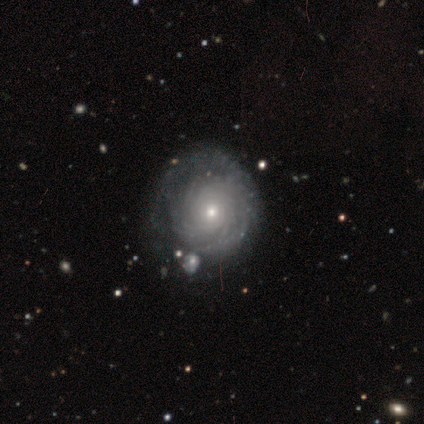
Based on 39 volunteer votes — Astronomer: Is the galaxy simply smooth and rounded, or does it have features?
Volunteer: featured or disk — 95%.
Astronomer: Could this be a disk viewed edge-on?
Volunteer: no — 97%.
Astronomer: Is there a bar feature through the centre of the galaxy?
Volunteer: no — 97%.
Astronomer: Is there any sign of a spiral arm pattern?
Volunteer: yes — 94%.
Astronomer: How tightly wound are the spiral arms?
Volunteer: tight — 88%.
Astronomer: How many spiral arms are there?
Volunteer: can't tell — 59%.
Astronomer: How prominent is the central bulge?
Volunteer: small — 69%.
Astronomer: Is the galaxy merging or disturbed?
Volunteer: none — 46%.